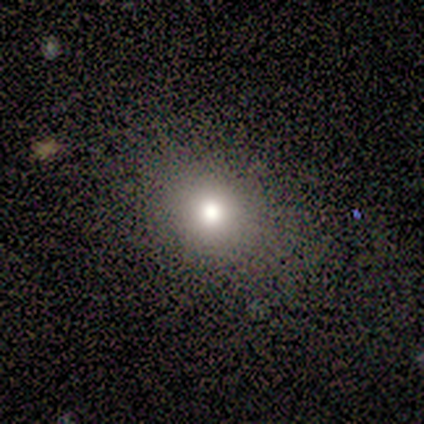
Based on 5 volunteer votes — Overall: smooth (80%). How rounded: round (75%). Merging: none (75%).